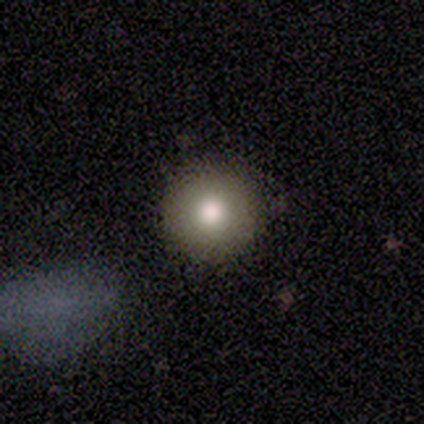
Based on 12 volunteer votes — Smooth or featured? smooth (83%)
How rounded? round (100%)
Merging? none (100%)